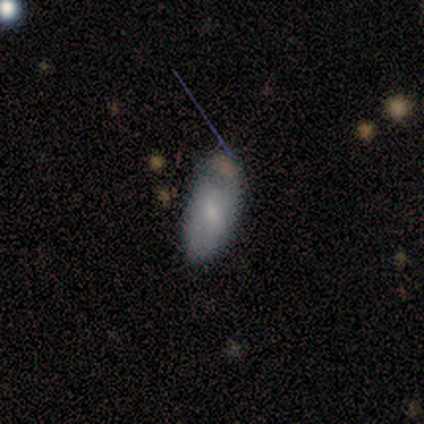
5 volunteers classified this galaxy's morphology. Overall: smooth (40%, tied with featured or disk). How rounded: in between (50%, tied with cigar-shaped). Merging: none (75%).